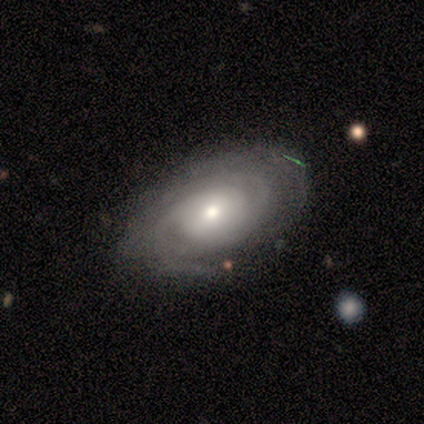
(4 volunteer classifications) This appears to be a featured or disk galaxy (100%) with no bar (100%), tight (75%) spiral arms (100%) and a small central bulge (50%). Merging: none (100%).